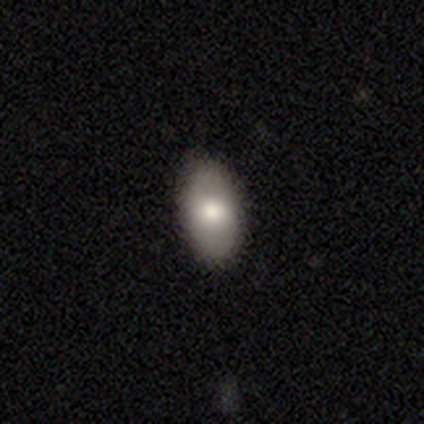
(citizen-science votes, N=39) Smooth or featured?
  - smooth: 64% *
  - featured or disk: 18%
  - star or artifact: 18%
How rounded?
  - in between: 92% *
  - round: 4%
  - cigar-shaped: 4%
Merging?
  - none: 88% *
  - minor disturbance: 9%
  - major disturbance: 3%
  - merger: 0%